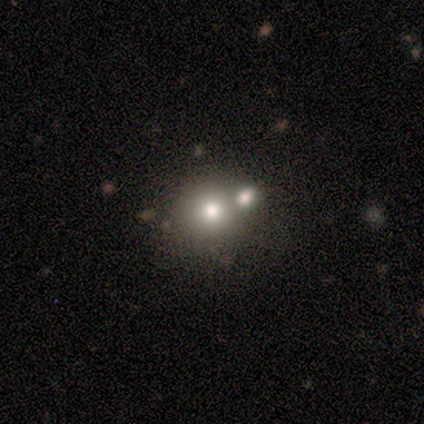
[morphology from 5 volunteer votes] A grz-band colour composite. It shows a smooth galaxy with no disk features (80%) that is round (100%). Merging: none (100%).